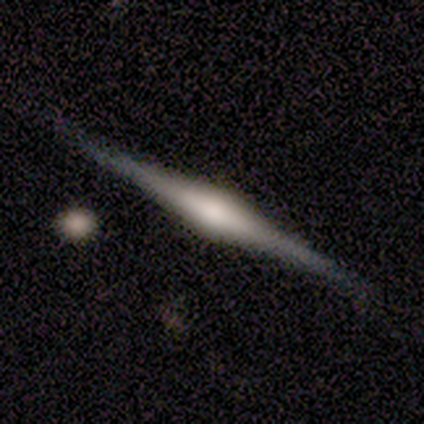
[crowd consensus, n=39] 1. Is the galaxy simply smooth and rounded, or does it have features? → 92% featured or disk, 8% smooth, 0% star or artifact.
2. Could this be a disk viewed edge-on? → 100% yes, 0% no.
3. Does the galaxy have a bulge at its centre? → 83% rounded, 17% boxy, 0% none.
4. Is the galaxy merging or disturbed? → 90% none, 8% minor disturbance, 3% merger, 0% major disturbance.